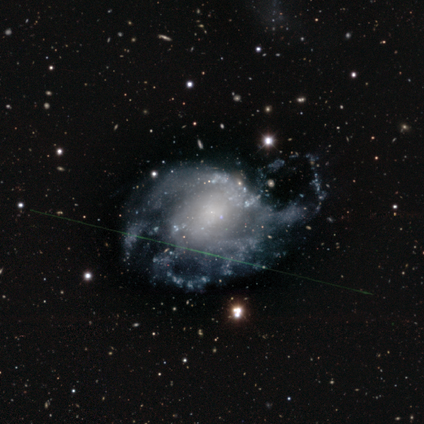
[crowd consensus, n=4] This appears to be a featured or disk galaxy (75%) with a weak bar (67%), 3 (67%) loose (100%) spiral arms (100%) and a large central bulge (67%). Merging: major disturbance (75%).